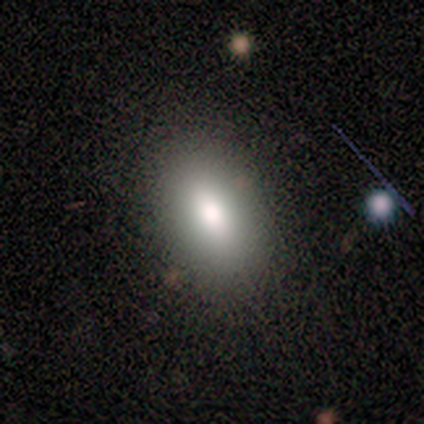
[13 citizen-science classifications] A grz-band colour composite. It shows a smooth galaxy with no disk features (77%) that is in between round and cigar-shaped (100%). Merging: none (91%).